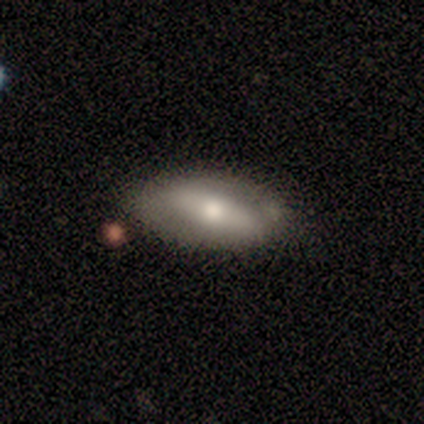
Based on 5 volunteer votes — A featured or disk galaxy (60%) with a weak bar (100%), no spiral arms (67%) and a moderate central bulge (100%).

Vote fractions:
- Smooth or featured? featured or disk: 60% / smooth: 40% / star or artifact: 0%
- Edge-on disk? no: 100% / yes: 0%
- Bar? weak: 100% / strong: 0% / no: 0%
- Spiral arms? no: 67% / yes: 33%
- Bulge size? moderate: 100% / dominant: 0% / large: 0% / small: 0% / none: 0%
- Merging? none: 100% / minor disturbance: 0% / major disturbance: 0% / merger: 0%